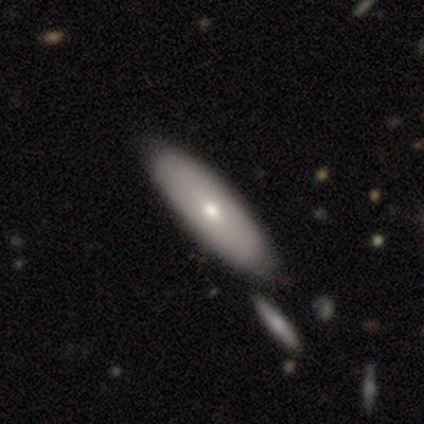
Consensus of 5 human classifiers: smooth 80%, featured or disk 20%, star or artifact 0%. Down the decision tree: how rounded — in between (50%, tied with cigar-shaped); merging — none (60%).